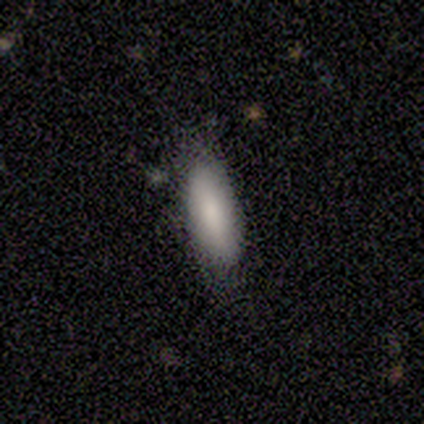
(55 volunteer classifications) Overall: smooth (82%). How rounded: in between (87%). Merging: none (66%; minor disturbance 28%).